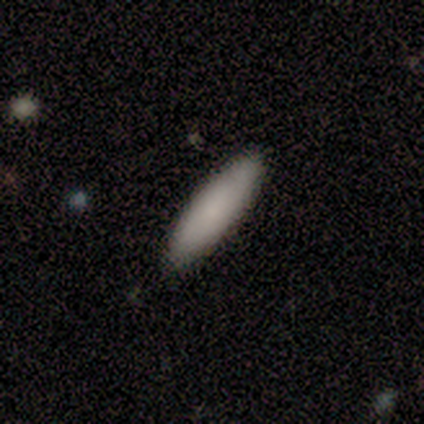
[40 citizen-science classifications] A smooth galaxy with no disk features (88%) that is cigar-shaped (74%).

Vote fractions:
- Smooth or featured? smooth: 88% / star or artifact: 8% / featured or disk: 5%
- How rounded? cigar-shaped: 74% / in between: 26% / round: 0%
- Merging? none: 97% / minor disturbance: 3% / major disturbance: 0% / merger: 0%